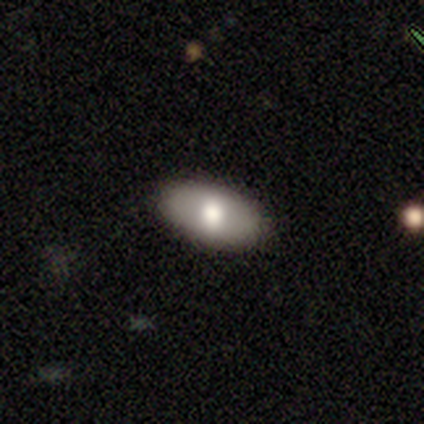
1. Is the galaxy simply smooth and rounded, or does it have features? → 50% smooth, 44% featured or disk, 6% star or artifact.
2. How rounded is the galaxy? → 100% in between, 0% round, 0% cigar-shaped.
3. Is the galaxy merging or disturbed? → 100% none, 0% minor disturbance, 0% major disturbance, 0% merger.